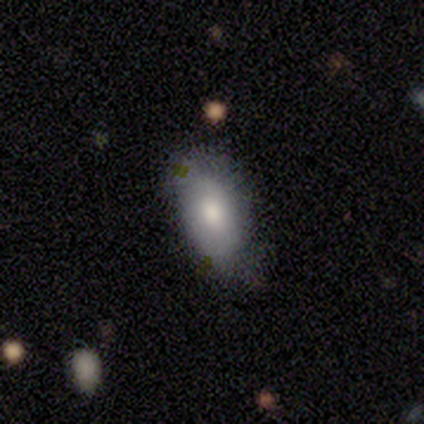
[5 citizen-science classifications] Volunteers were most divided on "smooth or featured": smooth: 60%, featured or disk: 20%, star or artifact: 20%. More confident: how rounded — in between (100%); merging — none (100%).